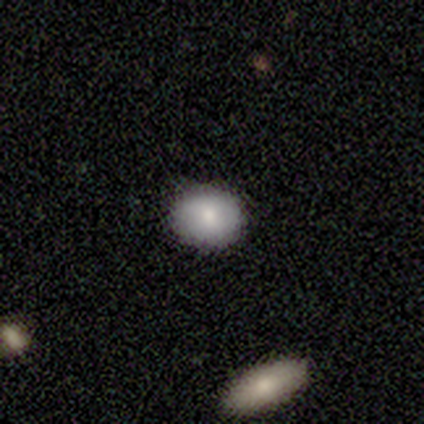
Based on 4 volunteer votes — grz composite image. It shows a smooth galaxy with no disk features (100%) that is round (50%, tied with in between). Merging: none (100%).